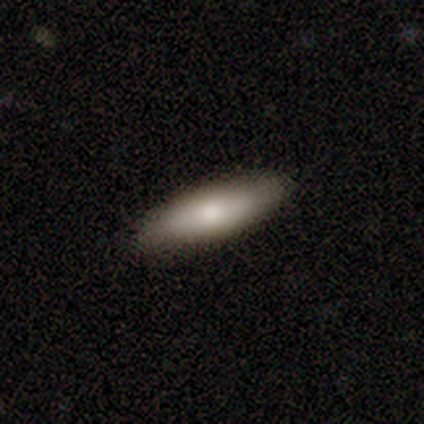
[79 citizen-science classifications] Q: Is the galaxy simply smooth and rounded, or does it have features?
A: smooth — 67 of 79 (85%).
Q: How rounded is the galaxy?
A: in between — 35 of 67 (52%).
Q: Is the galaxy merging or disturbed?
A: none — 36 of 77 (47%).